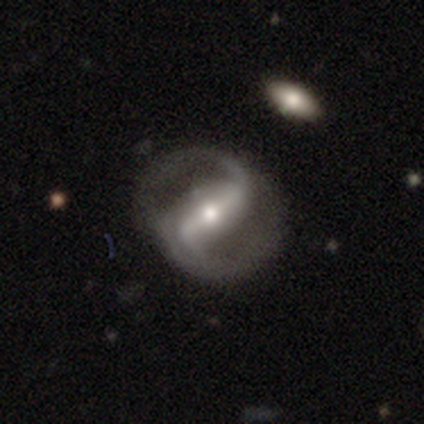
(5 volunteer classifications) smooth-or-featured: featured or disk: 100% | smooth: 0% | star or artifact: 0%
  disk-edge-on: no: 80% | yes: 20%
    bar: strong: 50% (tied) | weak: 50% (tied) | no: 0%
    has-spiral-arms: yes: 100% | no: 0%
      spiral-winding: medium: 75% | loose: 25% | tight: 0%
      spiral-arm-count: 2: 100% | 1: 0% | 3: 0% | 4: 0% | more than 4: 0% | can't tell: 0%
    bulge-size: small: 75% | moderate: 25% | dominant: 0% | large: 0% | none: 0%
  merging: none: 80% | minor disturbance: 20% | major disturbance: 0% | merger: 0%